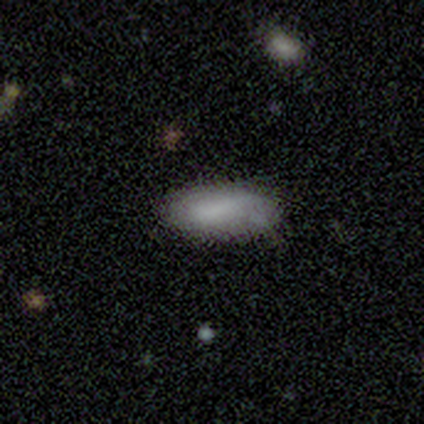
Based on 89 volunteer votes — A smooth galaxy with no disk features (87%) that is in between round and cigar-shaped (88%). Merging: none (69%).